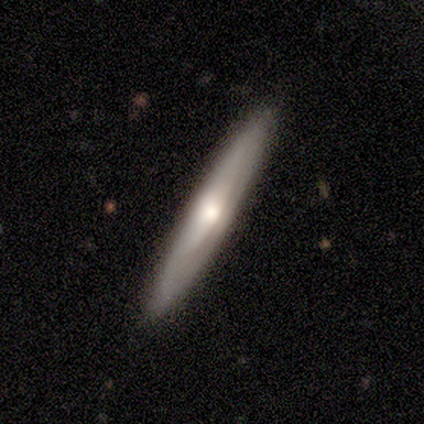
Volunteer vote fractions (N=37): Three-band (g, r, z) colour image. It shows a featured or disk galaxy (68%) viewed edge-on (84%) with a rounded central bulge (81%). Merging: none (83%).